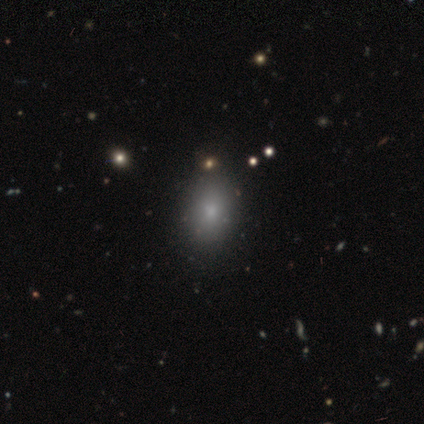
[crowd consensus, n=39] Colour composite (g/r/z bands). It shows a smooth galaxy with no disk features (74%) that is in between round and cigar-shaped (83%). Merging: none (86%).